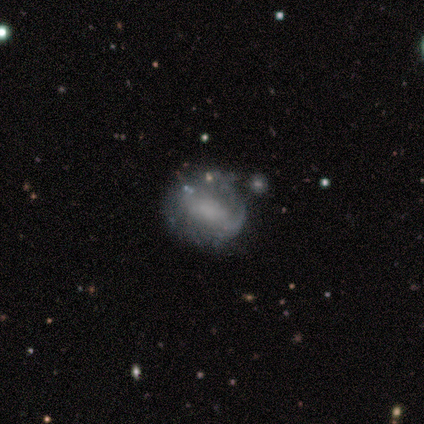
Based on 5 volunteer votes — This appears to be a featured or disk galaxy (100%) with a weak bar (60%), no spiral arms (60%) and no central bulge (60%). Merging: none (40%, tied with minor disturbance).